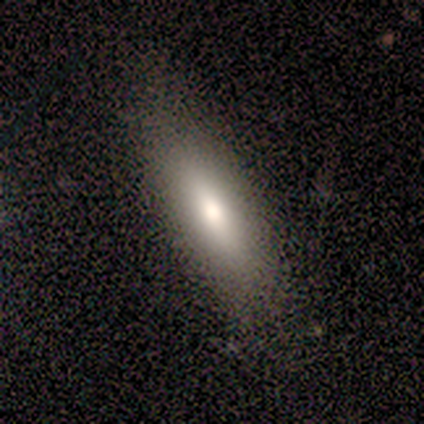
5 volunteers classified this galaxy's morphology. smooth_or_featured: smooth (p=0.60) [alt: featured or disk p=0.20]
how_rounded: in between (p=0.67) [alt: cigar-shaped p=0.33]
merging: none (p=1.00)